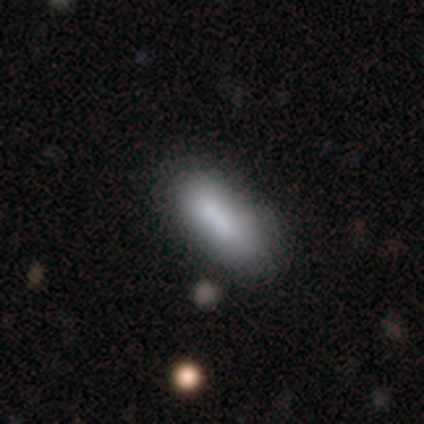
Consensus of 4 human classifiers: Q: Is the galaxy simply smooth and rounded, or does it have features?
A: smooth — 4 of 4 (100%).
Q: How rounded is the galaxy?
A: in between — 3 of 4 (75%).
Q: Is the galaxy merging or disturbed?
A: none — 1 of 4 (25%, tied with minor disturbance, major disturbance and merger).